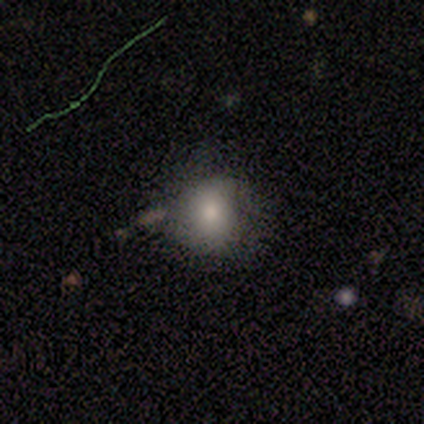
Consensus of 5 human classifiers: Smooth or featured: smooth — 60% (star or artifact — 40%)
How rounded: round — 100%
Merging: none — 67% (minor disturbance — 33%)